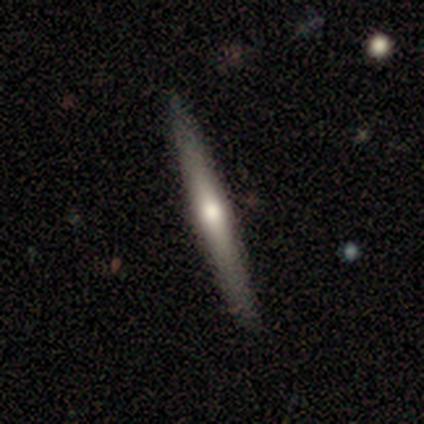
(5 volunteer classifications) Smooth or featured? 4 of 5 (80%) said featured or disk. Edge-on disk? 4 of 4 (100%) said yes. Edge-on bulge? 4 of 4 (100%) said rounded. Merging? 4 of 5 (80%) said none.